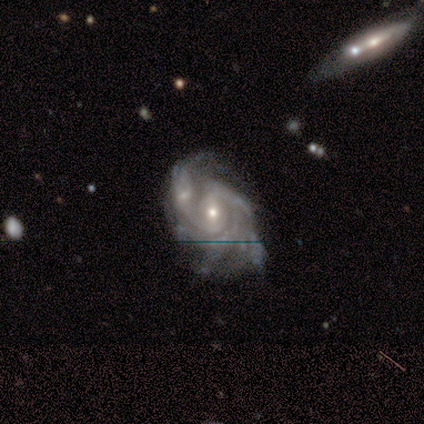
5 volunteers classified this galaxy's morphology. Q: Smooth or featured?
A: featured or disk (100%)
Q: Edge-on disk?
A: no (100%)
Q: Bar?
A: no (80%); runner-up: weak (20%)
Q: Spiral arms?
A: yes (100%)
Q: Spiral winding?
A: tight (60%); runner-up: medium (40%)
Q: Spiral arm count?
A: 2 (40%); tied with: 4 (40%)
Q: Bulge size?
A: moderate (60%); runner-up: small (40%)
Q: Merging?
A: none (40%); tied with: merger (40%)